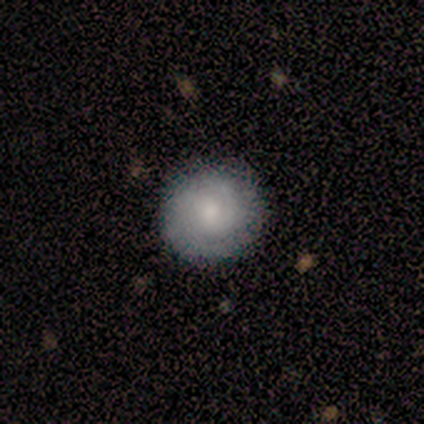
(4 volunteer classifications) Smooth or featured? 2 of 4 (50%, tied with featured or disk) said smooth. How rounded? 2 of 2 (100%) said round. Merging? 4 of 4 (100%) said none.